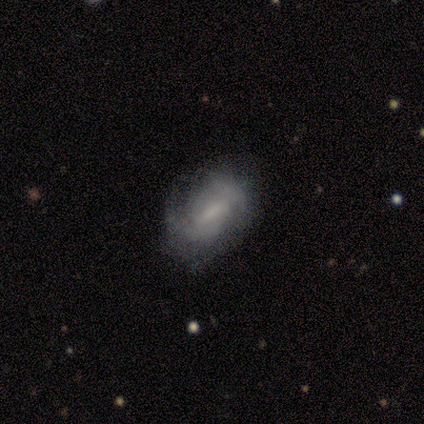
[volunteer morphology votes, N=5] Smooth or featured?
  - featured or disk: 100% *
  - smooth: 0%
  - star or artifact: 0%
Edge-on disk?
  - no: 100% *
  - yes: 0%
Bar?
  - strong: 60% *
  - weak: 40%
  - no: 0%
Spiral arms?
  - yes: 100% *
  - no: 0%
Spiral winding?
  - medium: 80% *
  - tight: 20%
  - loose: 0%
Spiral arm count?
  - 2: 60% *
  - can't tell: 40%
  - 1: 0%
  - 3: 0%
  - 4: 0%
  - more than 4: 0%
Bulge size?
  - moderate: 40% *
  - large: 20%
  - small: 20%
  - none: 20%
  - dominant: 0%
Merging?
  - none: 80% *
  - minor disturbance: 20%
  - major disturbance: 0%
  - merger: 0%